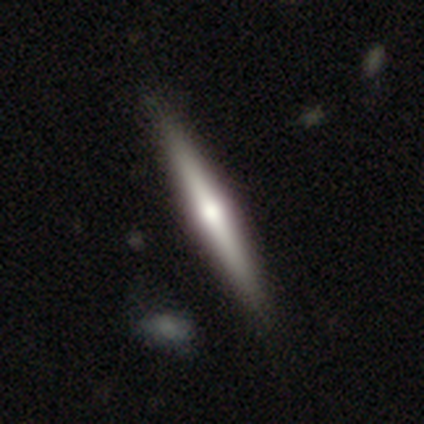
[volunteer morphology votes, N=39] Smooth or featured? featured or disk (69%)
Edge-on disk? yes (100%)
Edge-on bulge? rounded (81%)
Merging? none (65%)